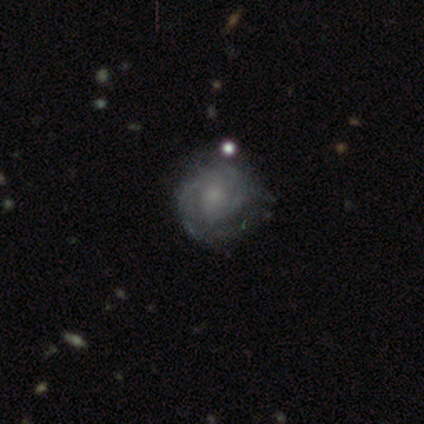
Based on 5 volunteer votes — This is clearly a featured or disk galaxy (80%). It is likely not viewed edge-on (75%). Bar: likely no (67%). Spiral arm pattern: likely yes (67%). Spiral arm count: possibly 2 (50%, tied with can't tell). Spiral winding: possibly tight (50%, tied with medium). Central bulge: likely small (67%). Merging: marginally none (40%).